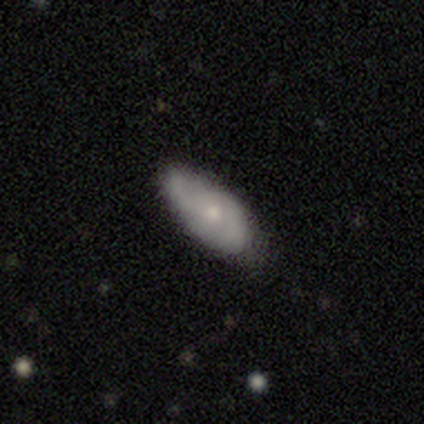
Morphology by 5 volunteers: smooth-or-featured: smooth: 80% | featured or disk: 20% | star or artifact: 0%
  how-rounded: in between: 100% | round: 0% | cigar-shaped: 0%
  merging: none: 80% | minor disturbance: 20% | major disturbance: 0% | merger: 0%